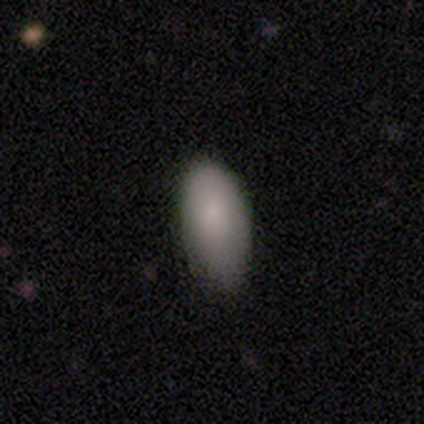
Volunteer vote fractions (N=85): Smooth or featured? smooth (84%)
How rounded? in between (93%)
Merging? minor disturbance (51%)